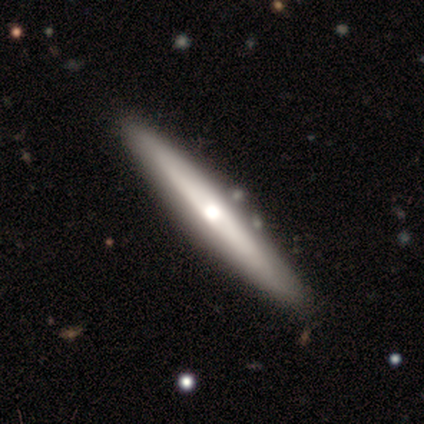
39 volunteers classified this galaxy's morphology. Q: Smooth or featured?
A: featured or disk (62%); runner-up: smooth (33%)
Q: Edge-on disk?
A: yes (96%); runner-up: no (4%)
Q: Edge-on bulge?
A: rounded (70%); runner-up: none (30%)
Q: Merging?
A: none (68%); runner-up: minor disturbance (5%)